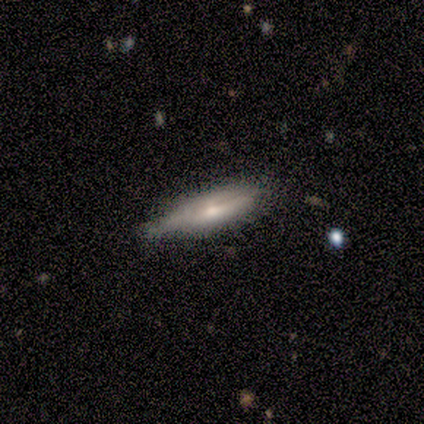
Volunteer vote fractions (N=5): Q: Smooth or featured?
A: smooth (40%); tied with: star or artifact (40%)
Q: How rounded?
A: cigar-shaped (100%)
Q: Merging?
A: none (33%); tied with: minor disturbance (33%); merger (33%)